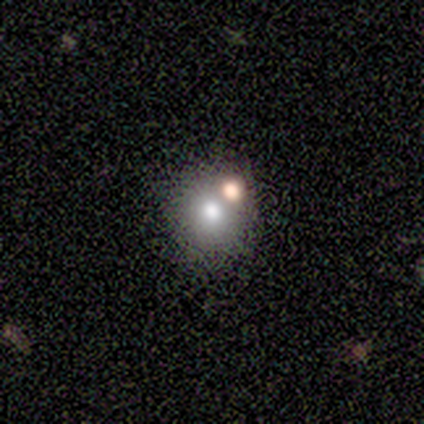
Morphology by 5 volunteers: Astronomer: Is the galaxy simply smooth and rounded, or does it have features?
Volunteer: smooth — 60%.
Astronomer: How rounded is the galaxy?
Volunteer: round — 100%.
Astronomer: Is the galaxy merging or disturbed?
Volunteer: none — 75%.